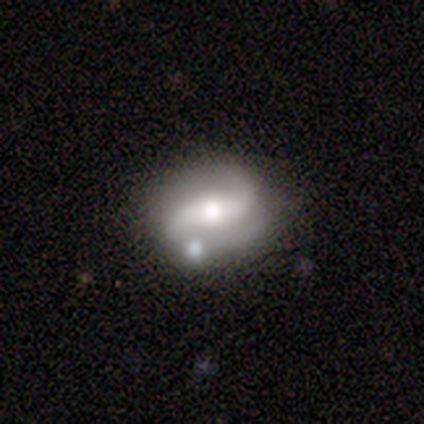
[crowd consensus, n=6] featured or disk 100%, smooth 0%, star or artifact 0%. Down the decision tree: edge-on disk — no (100%); bar — weak (67%); spiral arms — yes (100%); spiral arm count — 2 (100%); spiral winding — tight (50%); bulge size — moderate (83%); merging — none (67%).